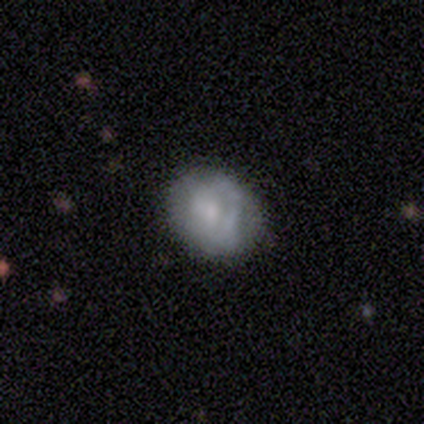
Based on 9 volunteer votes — This appears to be a smooth galaxy with no disk features (56%) that is in between round and cigar-shaped (80%). Merging: none (67%).